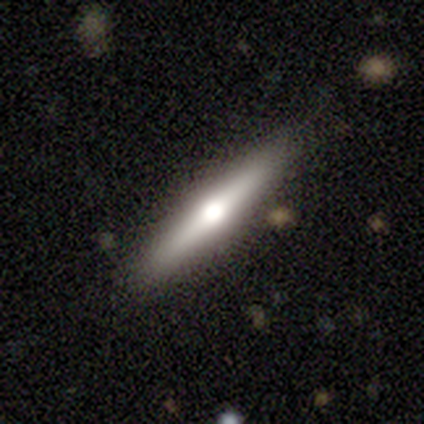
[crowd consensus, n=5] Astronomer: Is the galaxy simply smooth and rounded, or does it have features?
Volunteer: smooth — 40%, tied with featured or disk at 40%.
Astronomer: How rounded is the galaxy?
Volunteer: cigar-shaped — 100%.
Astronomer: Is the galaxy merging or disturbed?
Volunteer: none — 75%.